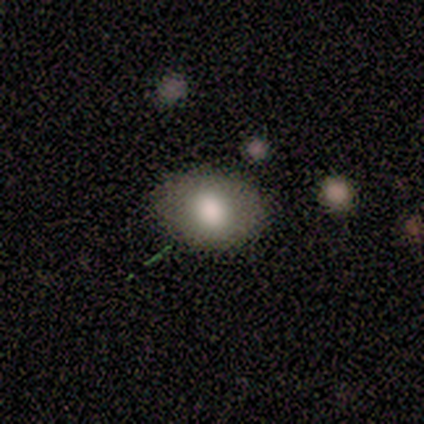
smooth 60%, star or artifact 40%, featured or disk 0%. Down the decision tree: how rounded — in between (67%); merging — none (100%).